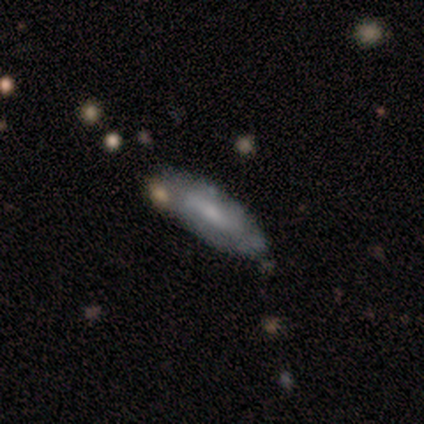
Q: Smooth or featured?
A: smooth (56%); runner-up: featured or disk (33%)
Q: How rounded?
A: cigar-shaped (60%); runner-up: in between (40%)
Q: Merging?
A: none (75%); runner-up: minor disturbance (12%)